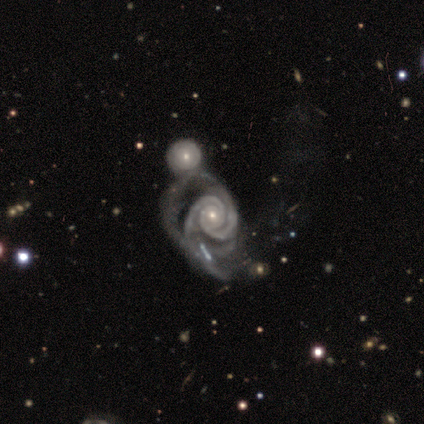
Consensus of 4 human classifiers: This is clearly a featured or disk galaxy (100%). It is clearly not viewed edge-on (100%). Bar: clearly no (100%). Spiral arm pattern: clearly yes (100%). Spiral arm count: likely 2 (75%). Spiral winding: likely tight (75%). Central bulge: likely small (75%). Merging: likely major disturbance (75%).